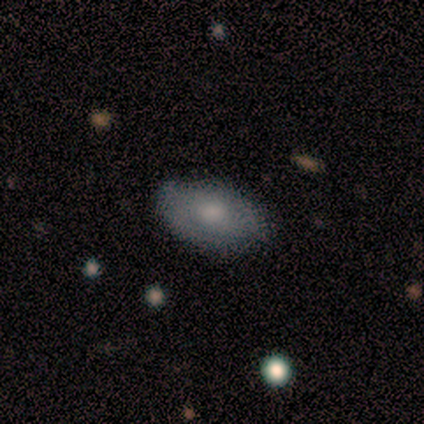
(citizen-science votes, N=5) smooth 60%, featured or disk 40%, star or artifact 0%. Down the decision tree: how rounded — in between (100%); merging — none (60%).